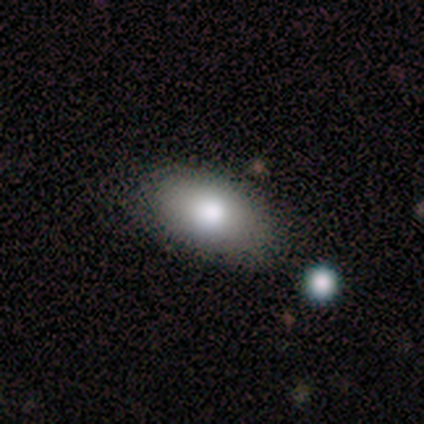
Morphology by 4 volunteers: Q: Smooth or featured?
A: smooth (75%); runner-up: star or artifact (25%)
Q: How rounded?
A: in between (100%)
Q: Merging?
A: none (67%); runner-up: minor disturbance (33%)